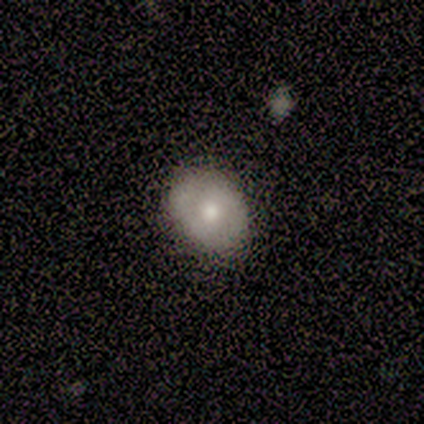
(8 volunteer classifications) This appears to be a smooth galaxy with no disk features (50%, tied with featured or disk) that is round (50%, tied with in between). Merging: none (88%).